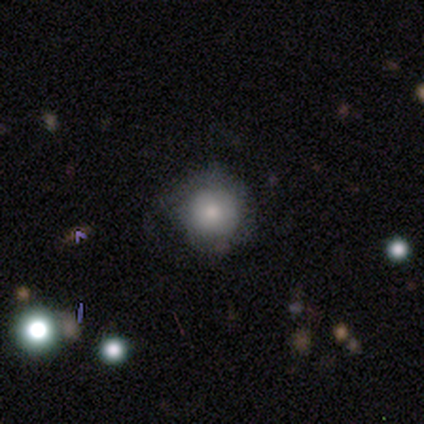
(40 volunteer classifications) smooth 72%, featured or disk 18%, star or artifact 10%. Down the decision tree: how rounded — round (97%); merging — none (58%).